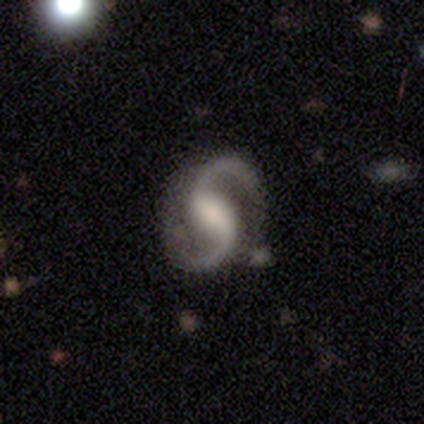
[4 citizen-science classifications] This appears to be a featured or disk galaxy (100%) with a strong bar (50%), 2 (100%) medium (100%) spiral arms (100%) and a moderate central bulge (50%, tied with none). Merging: none (100%).